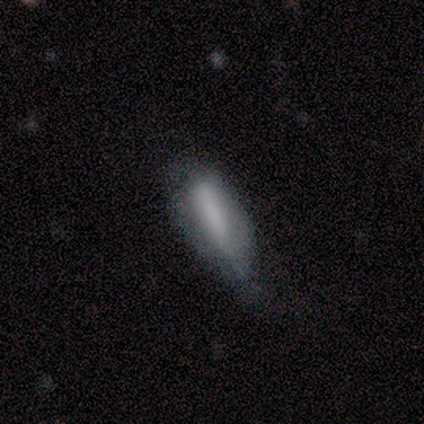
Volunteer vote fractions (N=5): Smooth or featured?
  - smooth: 100% *
  - featured or disk: 0%
  - star or artifact: 0%
How rounded?
  - in between: 60% *
  - cigar-shaped: 40%
  - round: 0%
Merging?
  - minor disturbance: 60% *
  - none: 40%
  - major disturbance: 0%
  - merger: 0%